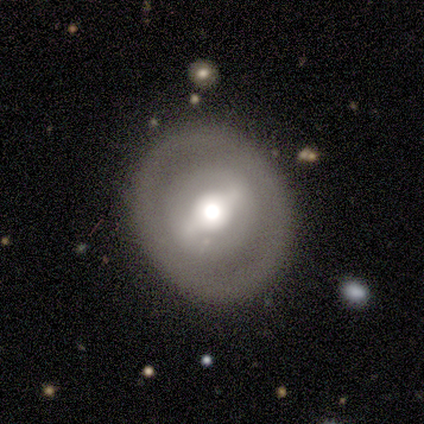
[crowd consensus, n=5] A smooth galaxy with no disk features (80%) that is round (100%).

Vote fractions:
- Smooth or featured? smooth: 80% / featured or disk: 20% / star or artifact: 0%
- How rounded? round: 100% / in between: 0% / cigar-shaped: 0%
- Merging? none: 80% / major disturbance: 20% / minor disturbance: 0% / merger: 0%